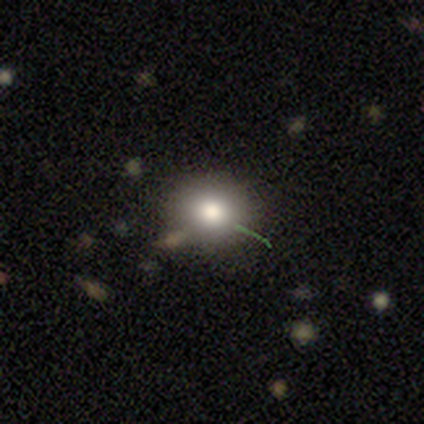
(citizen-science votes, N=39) A smooth galaxy with no disk features (72%) that is round (68%). Merging: none (91%).